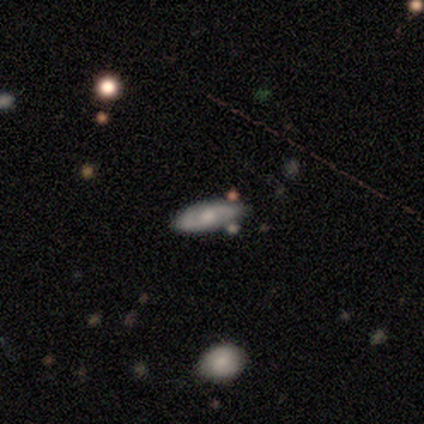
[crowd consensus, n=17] Overall: smooth (88%). How rounded: cigar-shaped (60%; in between 40%). Merging: none (88%).